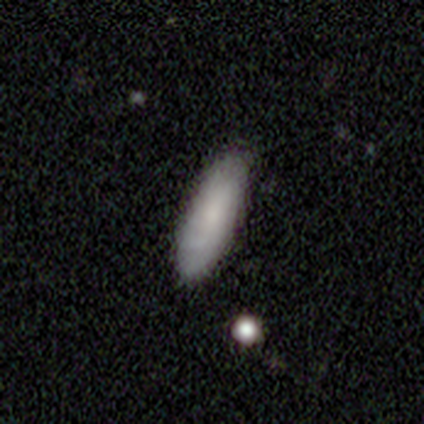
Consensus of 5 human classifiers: Morphology: type=smooth (80%); roundness=in between (50%, tied with cigar-shaped); merging=none (80%).